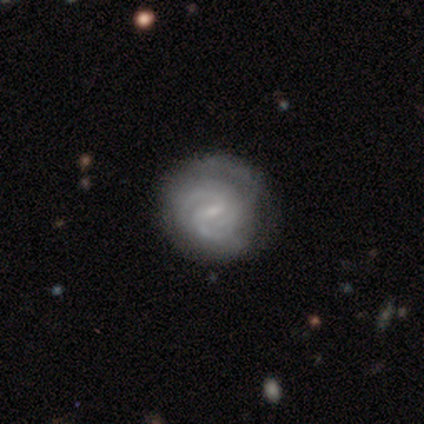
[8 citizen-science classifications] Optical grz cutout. It shows a featured or disk galaxy (100%) with a weak bar (62%), 2 (50%) medium (62%) spiral arms (100%) and a small central bulge (88%). Merging: none (88%).